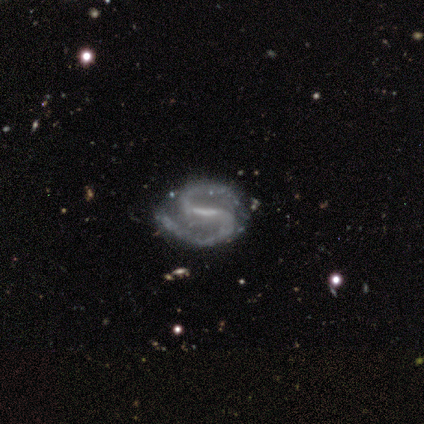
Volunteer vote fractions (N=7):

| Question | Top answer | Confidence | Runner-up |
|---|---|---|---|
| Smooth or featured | featured or disk | 100% | — |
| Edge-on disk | no | 100% | — |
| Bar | strong | 57% | weak (29%) |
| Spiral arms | yes | 100% | — |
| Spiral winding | loose | 57% | medium (43%) |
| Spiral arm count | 2 | 100% | — |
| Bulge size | none | 57% | moderate (29%) |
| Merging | none | 100% | — |